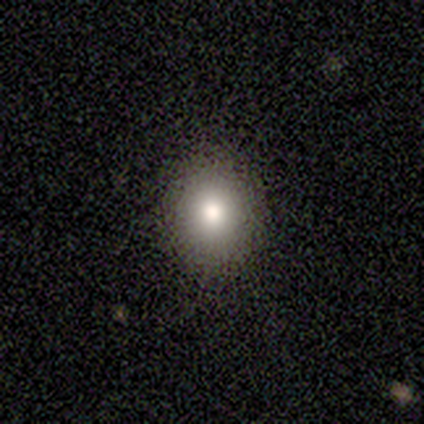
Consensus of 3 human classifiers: smooth-or-featured: smooth: 33% (tied) | featured or disk: 33% (tied) | star or artifact: 33% (tied)
  how-rounded: round: 100% | in between: 0% | cigar-shaped: 0%
  merging: none: 100% | minor disturbance: 0% | major disturbance: 0% | merger: 0%